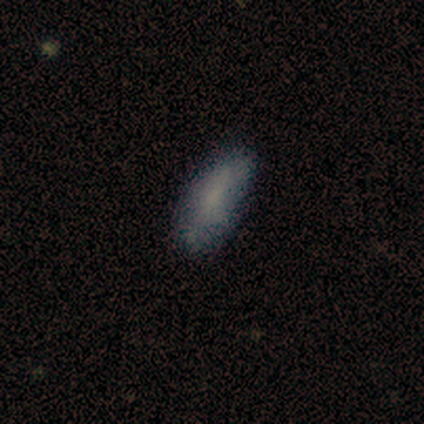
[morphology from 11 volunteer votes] Volunteers were most divided on "how rounded": in between: 80%, cigar-shaped: 20%, round: 0%. More confident: smooth or featured — smooth (91%); merging — none (80%).